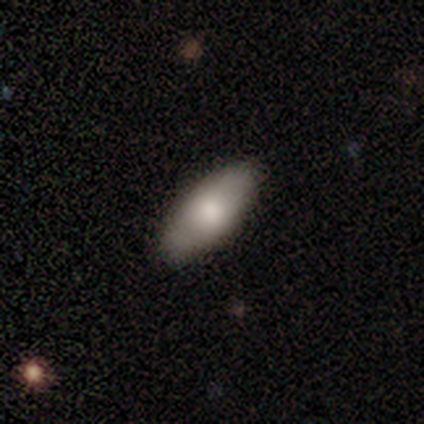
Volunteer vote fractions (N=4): This appears to be a smooth galaxy with no disk features (75%) that is in between round and cigar-shaped (100%). Merging: none (100%).